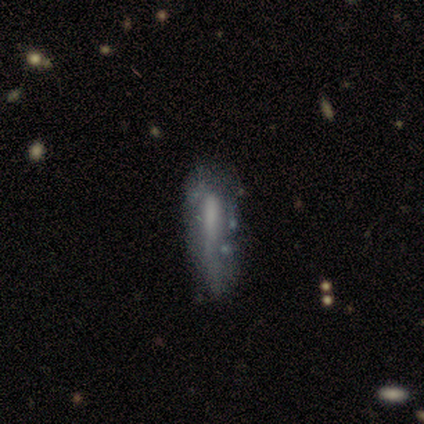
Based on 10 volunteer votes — Q: Smooth or featured?
A: smooth (50%); tied with: featured or disk (50%)
Q: How rounded?
A: cigar-shaped (60%); runner-up: in between (40%)
Q: Merging?
A: major disturbance (40%); runner-up: none (30%)